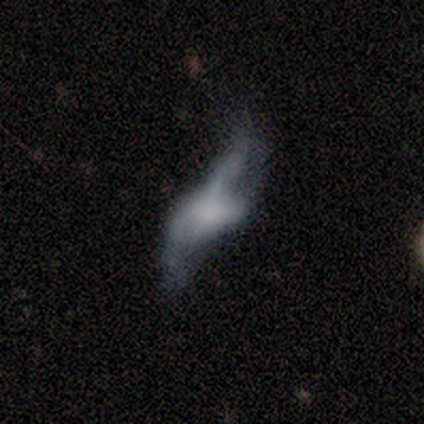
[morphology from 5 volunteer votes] A smooth galaxy with no disk features (40%, tied with featured or disk) that is in between round and cigar-shaped (100%). Merging: merger (50%).